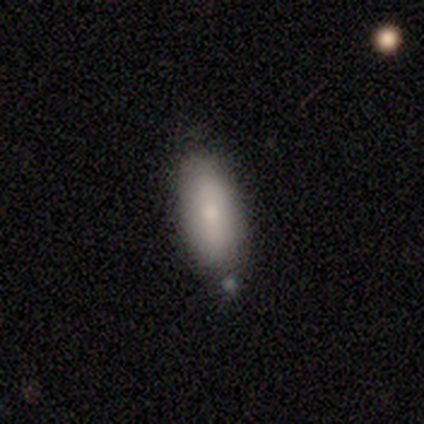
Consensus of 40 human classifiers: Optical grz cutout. It shows a smooth galaxy with no disk features (68%) that is in between round and cigar-shaped (93%). Merging: none (82%).